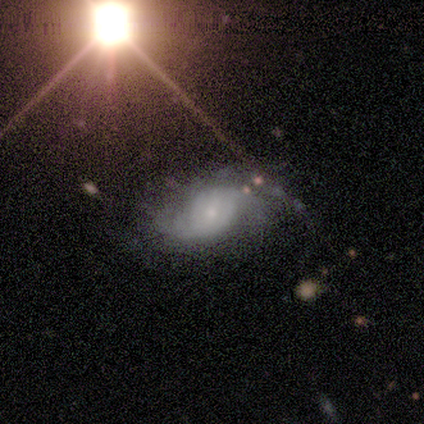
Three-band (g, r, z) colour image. It shows a featured or disk galaxy (80%) with no bar (100%), 2 (75%) loose (75%) spiral arms (100%) and a moderate central bulge (50%). Merging: none (75%).